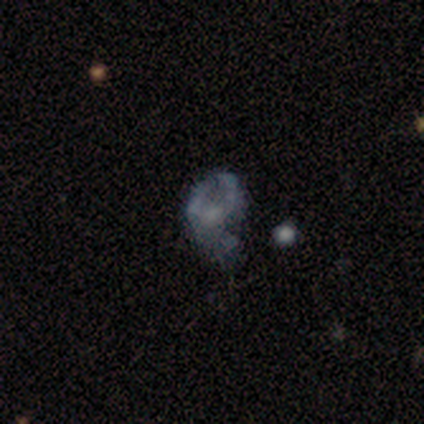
Smooth or featured: featured or disk — 70% (star or artifact — 20%)
Edge-on disk: no — 100%
Bar: no — 93% (weak — 7%)
Spiral arms: no — 82% (yes — 18%)
Bulge size: none — 68% (small — 21%)
Merging: major disturbance — 56% (none — 25%)